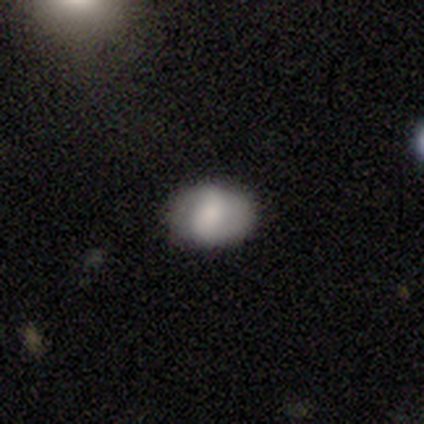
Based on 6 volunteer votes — A smooth galaxy with no disk features (67%) that is round (50%, tied with in between). Merging: none (83%).